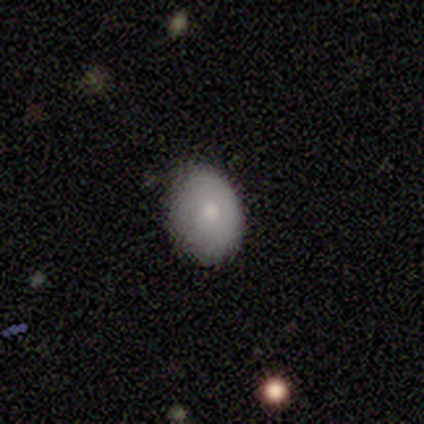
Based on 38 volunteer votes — This appears to be a smooth galaxy with no disk features (76%) that is round (52%). Merging: none (61%).